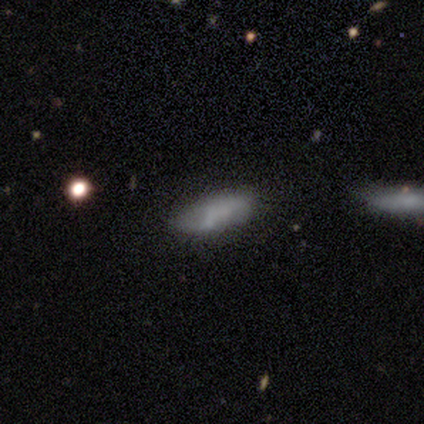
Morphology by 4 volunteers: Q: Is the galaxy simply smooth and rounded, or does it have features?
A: smooth — 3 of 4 (75%).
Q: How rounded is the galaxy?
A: in between — 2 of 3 (67%).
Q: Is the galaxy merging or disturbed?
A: none — 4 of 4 (100%).